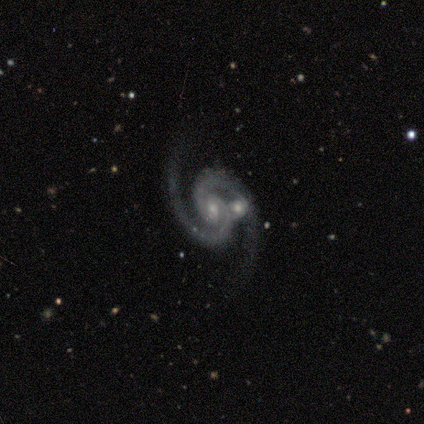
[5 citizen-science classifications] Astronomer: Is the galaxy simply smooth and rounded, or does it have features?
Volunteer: featured or disk — 100%.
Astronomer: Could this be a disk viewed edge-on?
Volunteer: no — 100%.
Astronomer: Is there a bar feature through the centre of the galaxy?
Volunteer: weak — 60% (runner-up: no, 40%).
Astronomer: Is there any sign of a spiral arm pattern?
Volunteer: yes — 100%.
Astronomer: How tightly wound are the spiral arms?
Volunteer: medium — 40%, tied with loose at 40%.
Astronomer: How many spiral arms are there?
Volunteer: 2 — 100%.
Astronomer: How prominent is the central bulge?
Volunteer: small — 80%.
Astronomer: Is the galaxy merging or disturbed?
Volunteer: none — 60% (runner-up: merger, 40%).